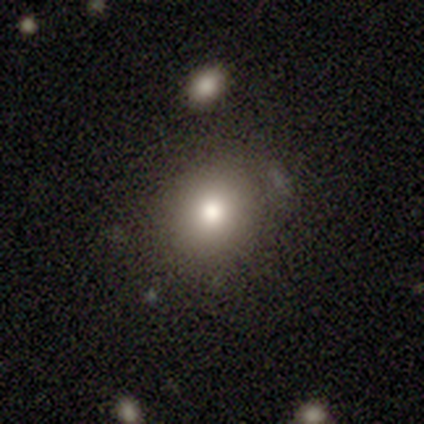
Smooth or featured? smooth (87%)
How rounded? round (82%)
Merging? none (77%)